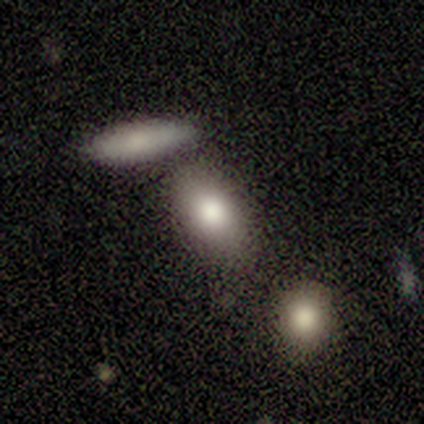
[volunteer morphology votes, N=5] Smooth or featured: smooth — 100%
How rounded: in between — 100%
Merging: none — 60% (minor disturbance — 20%)